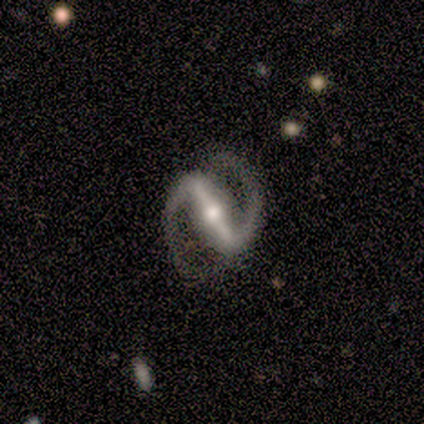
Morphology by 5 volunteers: This appears to be a featured or disk galaxy (100%) with a strong bar (100%), 2 (100%) medium (50%) spiral arms (100%) and a moderate central bulge (75%). Merging: none (100%).